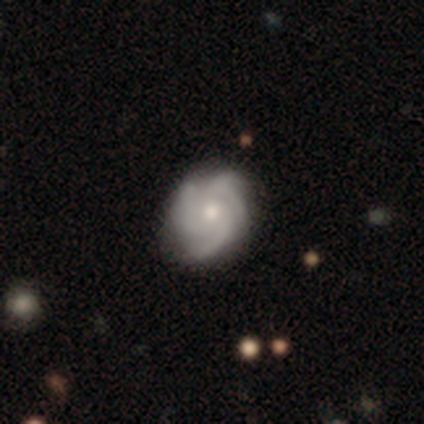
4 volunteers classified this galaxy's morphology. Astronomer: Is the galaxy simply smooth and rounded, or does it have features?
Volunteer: featured or disk — 75%.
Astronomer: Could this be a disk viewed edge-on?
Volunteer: no — 100%.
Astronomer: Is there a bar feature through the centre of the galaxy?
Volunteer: no — 67%.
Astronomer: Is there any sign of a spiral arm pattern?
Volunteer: yes — 100%.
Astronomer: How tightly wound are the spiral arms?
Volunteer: tight — 67%.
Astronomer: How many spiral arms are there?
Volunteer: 3 — 100%.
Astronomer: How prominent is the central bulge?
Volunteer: small — 67%.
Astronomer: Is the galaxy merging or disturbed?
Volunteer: minor disturbance — 75%.